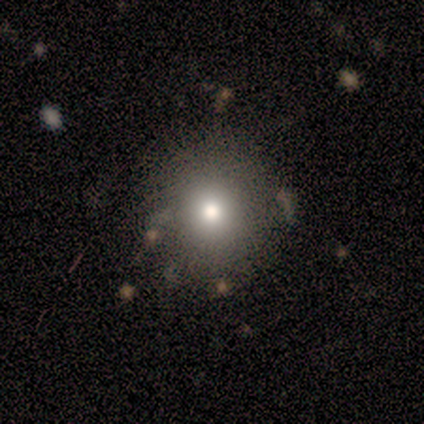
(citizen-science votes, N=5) Volunteers were most divided on "smooth or featured" (2-way tie): smooth: 40%, featured or disk: 40%, star or artifact: 20%. More confident: how rounded — round (100%); merging — none (100%).